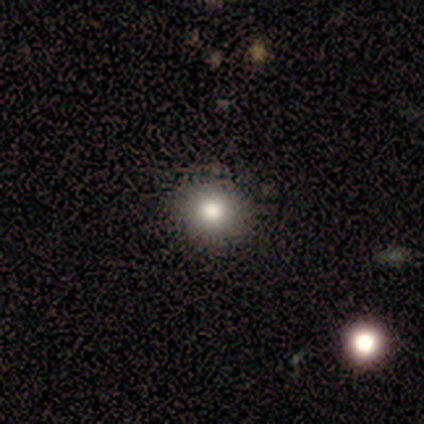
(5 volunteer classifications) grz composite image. It shows a smooth galaxy with no disk features (60%) that is round (100%). Merging: none (100%).